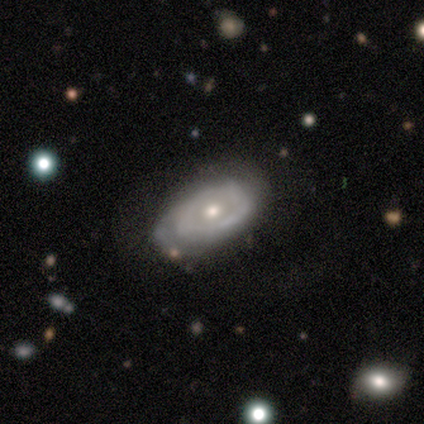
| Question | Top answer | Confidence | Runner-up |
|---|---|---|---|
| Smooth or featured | featured or disk | 73% | smooth (24%) |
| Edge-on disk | no | 100% | — |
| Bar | no | 93% | weak (7%) |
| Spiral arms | yes | 59% | no (41%) |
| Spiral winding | tight | 44% | loose (31%) |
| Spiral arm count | can't tell | 44% | 2 (38%) |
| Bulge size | small | 52% | moderate (41%) |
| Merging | none | 56% | minor disturbance (28%) |